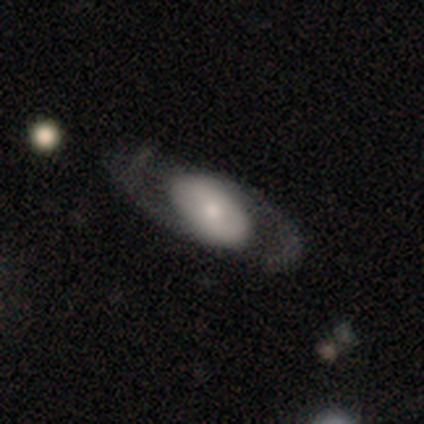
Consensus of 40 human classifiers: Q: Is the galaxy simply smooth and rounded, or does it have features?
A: smooth — 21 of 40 (52%).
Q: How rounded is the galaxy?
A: in between — 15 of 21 (71%).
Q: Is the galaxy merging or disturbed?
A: none — 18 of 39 (46%).